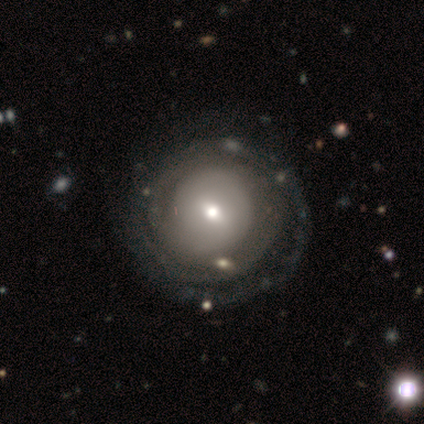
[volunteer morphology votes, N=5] A featured or disk galaxy (100%) with a weak bar (80%), no spiral arms (60%) and a moderate central bulge (60%).

Vote fractions:
- Smooth or featured? featured or disk: 100% / smooth: 0% / star or artifact: 0%
- Edge-on disk? no: 100% / yes: 0%
- Bar? weak: 80% / no: 20% / strong: 0%
- Spiral arms? no: 60% / yes: 40%
- Bulge size? moderate: 60% / large: 20% / small: 20% / dominant: 0% / none: 0%
- Merging? none: 80% / minor disturbance: 20% / major disturbance: 0% / merger: 0%